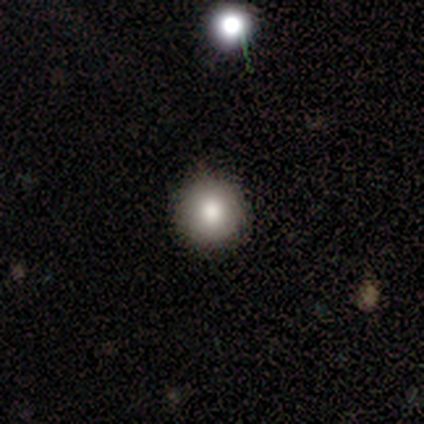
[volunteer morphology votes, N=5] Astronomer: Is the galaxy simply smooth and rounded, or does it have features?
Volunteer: smooth — 80%.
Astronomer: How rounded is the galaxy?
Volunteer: round — 100%.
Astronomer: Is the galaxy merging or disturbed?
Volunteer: none — 100%.